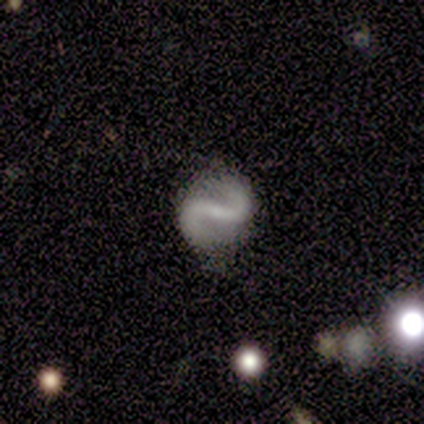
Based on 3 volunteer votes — Smooth or featured?
  - featured or disk: 100% *
  - smooth: 0%
  - star or artifact: 0%
Edge-on disk?
  - no: 67% *
  - yes: 33%
Bar?
  - strong: 100% *
  - weak: 0%
  - no: 0%
Spiral arms?
  - yes: 100% *
  - no: 0%
Spiral winding?
  - medium: 50% * (tied)
  - loose: 50% * (tied)
  - tight: 0%
Spiral arm count?
  - 2: 100% *
  - 1: 0%
  - 3: 0%
  - 4: 0%
  - more than 4: 0%
  - can't tell: 0%
Bulge size?
  - small: 100% *
  - dominant: 0%
  - large: 0%
  - moderate: 0%
  - none: 0%
Merging?
  - none: 100% *
  - minor disturbance: 0%
  - major disturbance: 0%
  - merger: 0%